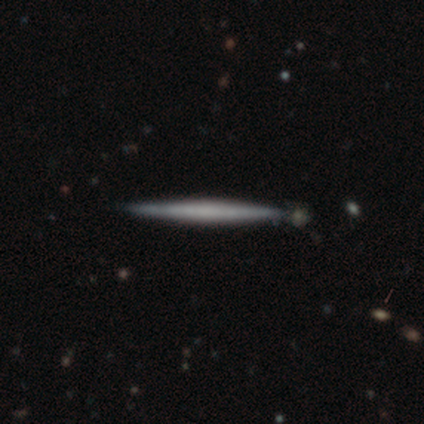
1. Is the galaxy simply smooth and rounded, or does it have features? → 60% featured or disk, 40% smooth, 0% star or artifact.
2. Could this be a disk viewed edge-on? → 67% yes, 33% no.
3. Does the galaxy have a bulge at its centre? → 50% none (tied), 50% rounded (tied), 0% boxy.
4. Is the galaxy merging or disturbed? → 100% none, 0% minor disturbance, 0% major disturbance, 0% merger.